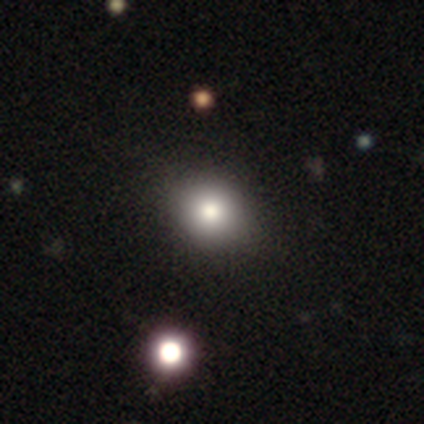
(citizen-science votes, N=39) Smooth or featured? 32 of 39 (82%) said smooth. How rounded? 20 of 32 (62%) said round. Merging? 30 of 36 (83%) said none.